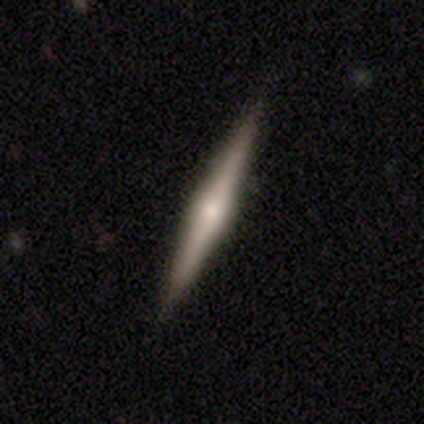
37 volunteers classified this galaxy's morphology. A featured or disk galaxy (68%) viewed edge-on (100%) with a rounded central bulge (84%). Merging: none (89%).